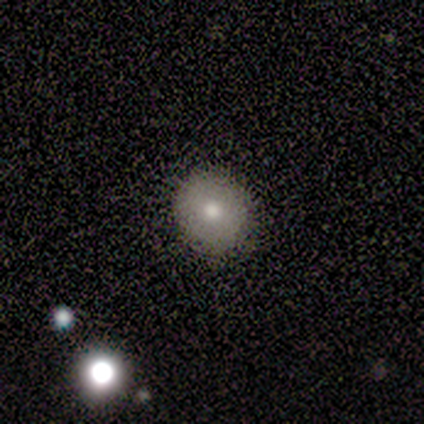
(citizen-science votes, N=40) smooth-or-featured: smooth: 72% | featured or disk: 18% | star or artifact: 10%
  how-rounded: round: 86% | in between: 10% | cigar-shaped: 3%
  merging: none: 86% | minor disturbance: 11% | major disturbance: 3% | merger: 0%